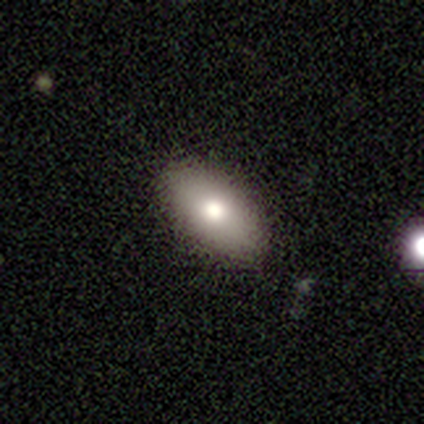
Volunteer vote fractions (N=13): Smooth or featured? 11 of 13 (85%) said smooth. How rounded? 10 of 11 (91%) said in between. Merging? 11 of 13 (85%) said none.